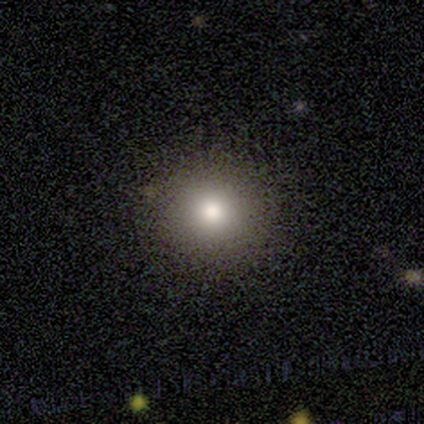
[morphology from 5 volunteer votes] Smooth or featured? 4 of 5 (80%) said smooth. How rounded? 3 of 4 (75%) said round. Merging? 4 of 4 (100%) said none.